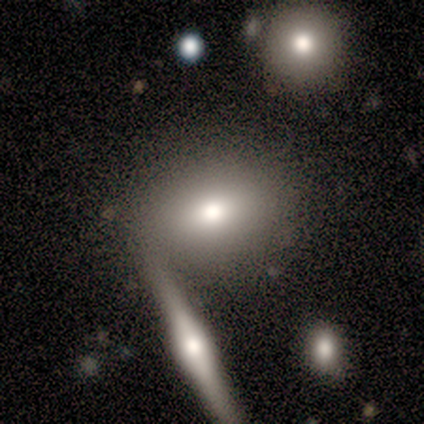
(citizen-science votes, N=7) Smooth or featured? 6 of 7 (86%) said smooth. How rounded? 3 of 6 (50%) said in between. Merging? 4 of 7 (57%) said none.